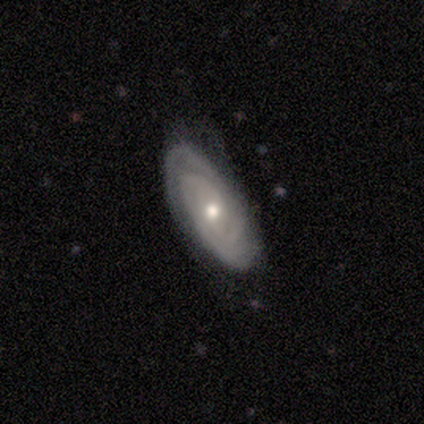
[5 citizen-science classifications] This is clearly a featured or disk galaxy (100%). It is clearly not viewed edge-on (100%). Bar: clearly no (80%). Spiral arm pattern: clearly yes (80%). Spiral arm count: likely 2 (75%). Spiral winding: clearly tight (100%). Central bulge: likely small (60%). Merging: clearly none (80%).